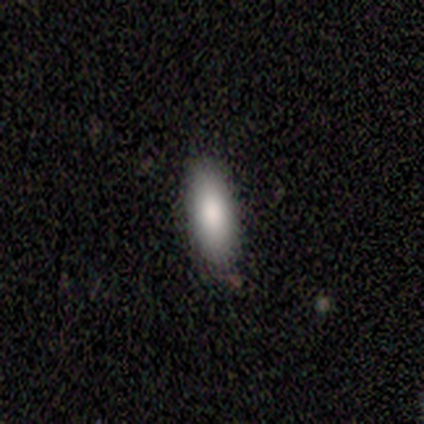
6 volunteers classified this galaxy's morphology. smooth 100%, featured or disk 0%, star or artifact 0%. Down the decision tree: how rounded — in between (50%, tied with cigar-shaped); merging — none (100%).